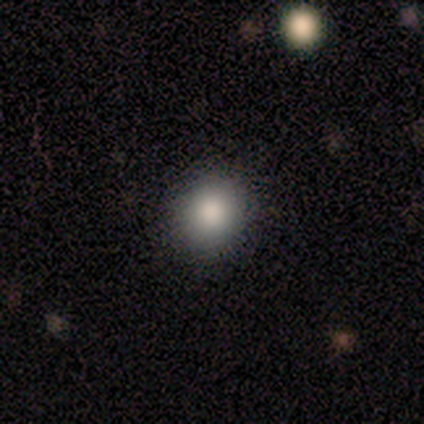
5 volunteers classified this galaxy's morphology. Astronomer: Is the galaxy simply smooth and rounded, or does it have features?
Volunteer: smooth — 100%.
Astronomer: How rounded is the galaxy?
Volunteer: round — 80%.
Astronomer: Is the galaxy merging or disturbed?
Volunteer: none — 100%.